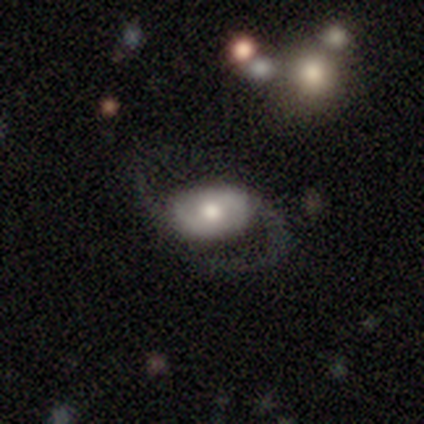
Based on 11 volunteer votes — This is clearly a featured or disk galaxy (91%). It is clearly not viewed edge-on (90%). Bar: marginally no (44%). Spiral arm pattern: clearly yes (89%). Spiral arm count: clearly 2 (100%). Spiral winding: possibly loose (50%). Central bulge: likely moderate (67%). Merging: likely none (73%).